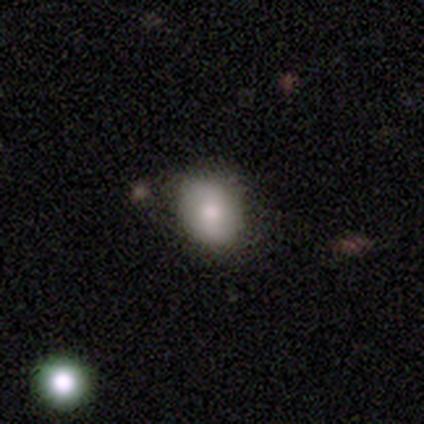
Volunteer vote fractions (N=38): A smooth galaxy with no disk features (84%) that is round (59%). Merging: none (72%).